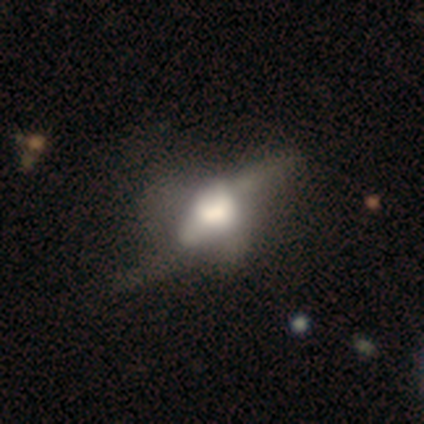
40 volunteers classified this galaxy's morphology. Smooth or featured? featured or disk (55%)
Edge-on disk? yes (50%, tied with no)
Edge-on bulge? rounded (64%)
Merging? major disturbance (37%)